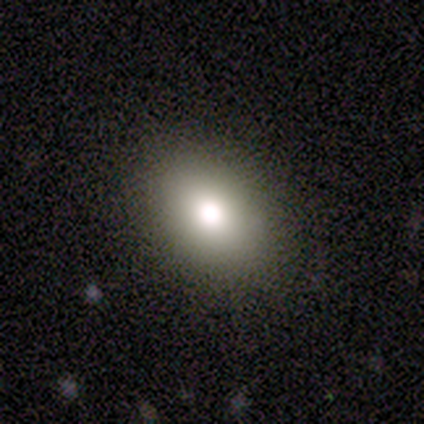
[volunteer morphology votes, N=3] smooth 67%, featured or disk 33%, star or artifact 0%. Down the decision tree: how rounded — round (50%, tied with in between); merging — none (100%).